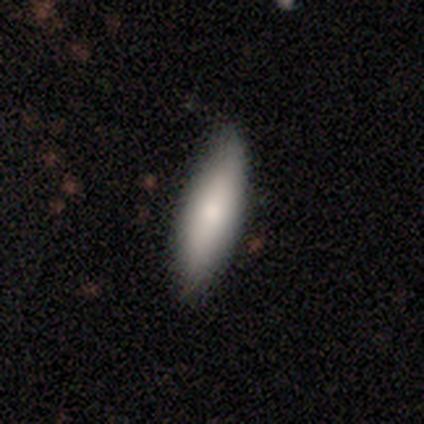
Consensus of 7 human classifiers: Volunteers were most divided on "how rounded" (2-way tie): in between: 50%, cigar-shaped: 50%, round: 0%. More confident: merging — none (80%); smooth or featured — smooth (57%).